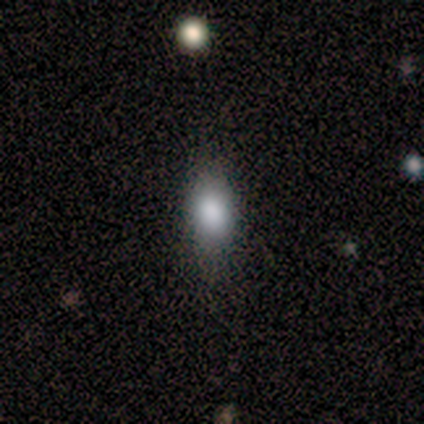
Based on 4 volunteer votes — Overall: smooth (75%). How rounded: round (33%, tied with in between and cigar-shaped). Merging: none (100%).